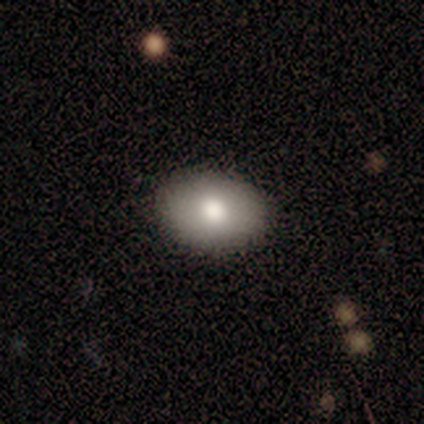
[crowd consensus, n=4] Volunteers were most divided on "how rounded": in between: 75%, round: 25%, cigar-shaped: 0%. More confident: smooth or featured — smooth (100%); merging — none (100%).